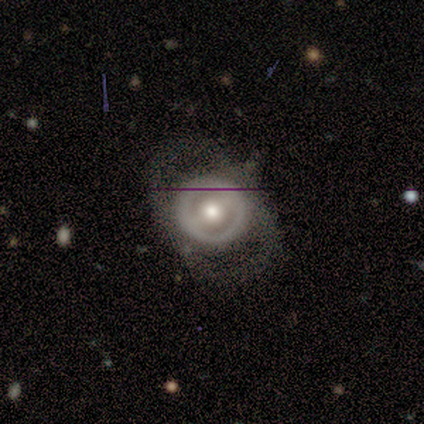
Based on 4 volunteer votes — Smooth or featured? 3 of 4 (75%) said smooth. How rounded? 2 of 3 (67%) said round. Merging? 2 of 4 (50%) said minor disturbance.